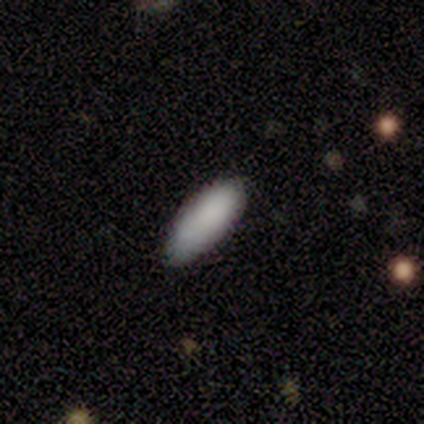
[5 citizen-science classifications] A smooth galaxy with no disk features (100%) that is in between round and cigar-shaped (80%).

Vote fractions:
- Smooth or featured? smooth: 100% / featured or disk: 0% / star or artifact: 0%
- How rounded? in between: 80% / cigar-shaped: 20% / round: 0%
- Merging? none: 80% / minor disturbance: 20% / major disturbance: 0% / merger: 0%